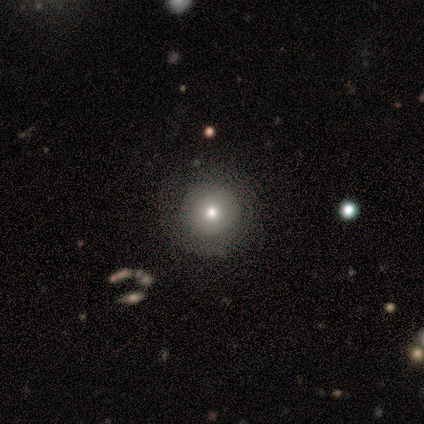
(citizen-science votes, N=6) This is likely a smooth galaxy (67%). How rounded: clearly round (100%). Merging: clearly none (100%).